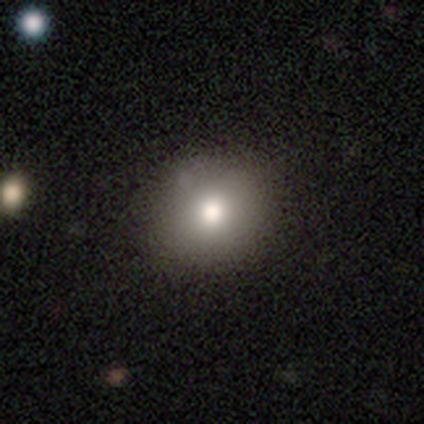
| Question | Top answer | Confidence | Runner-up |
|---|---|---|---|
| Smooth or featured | smooth | 100% | — |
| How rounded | round | 100% | — |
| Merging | none | 60% | minor disturbance (20%) |